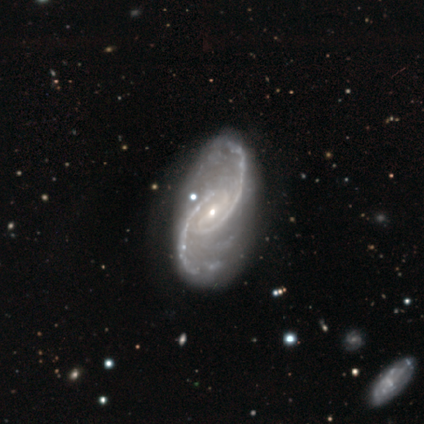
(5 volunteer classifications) Q: Smooth or featured?
A: featured or disk (100%)
Q: Edge-on disk?
A: no (100%)
Q: Bar?
A: strong (80%); runner-up: weak (20%)
Q: Spiral arms?
A: yes (100%)
Q: Spiral winding?
A: loose (60%); runner-up: tight (20%)
Q: Spiral arm count?
A: 2 (100%)
Q: Bulge size?
A: small (100%)
Q: Merging?
A: none (80%); runner-up: major disturbance (20%)